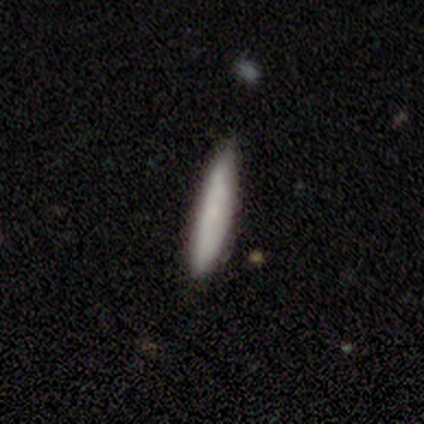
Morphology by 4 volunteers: A smooth galaxy with no disk features (75%) that is cigar-shaped (67%).

Vote fractions:
- Smooth or featured? smooth: 75% / featured or disk: 25% / star or artifact: 0%
- How rounded? cigar-shaped: 67% / in between: 33% / round: 0%
- Merging? none: 75% / merger: 25% / minor disturbance: 0% / major disturbance: 0%